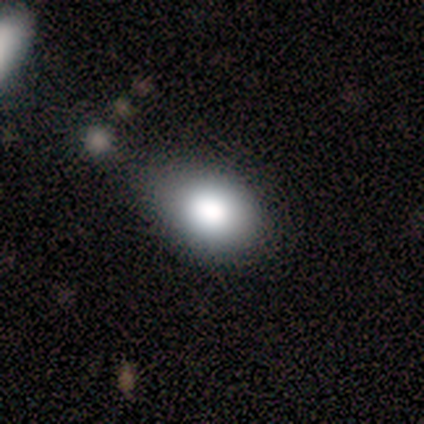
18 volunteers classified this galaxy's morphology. type=smooth (94%); roundness=in between (59%); merging=minor disturbance (65%).